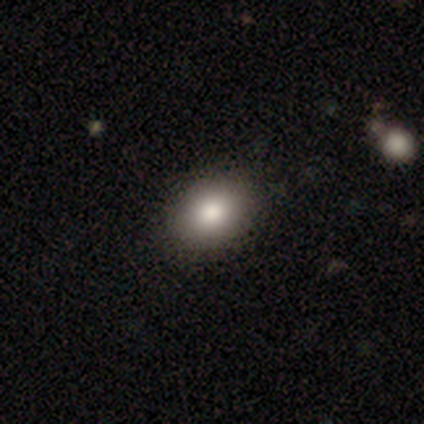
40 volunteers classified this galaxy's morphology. Smooth or featured: smooth — 85% (featured or disk — 12%)
How rounded: in between — 82% (round — 18%)
Merging: none — 74% (minor disturbance — 5%)